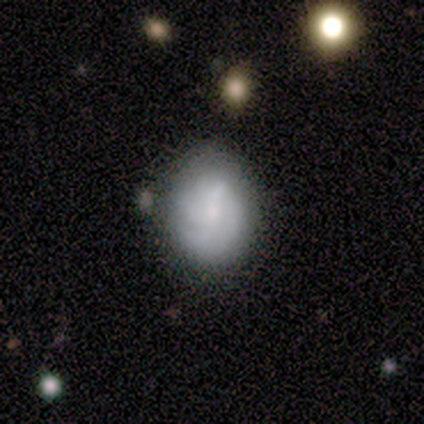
This appears to be a smooth galaxy with no disk features (60%) that is in between round and cigar-shaped (67%). Merging: none (75%).